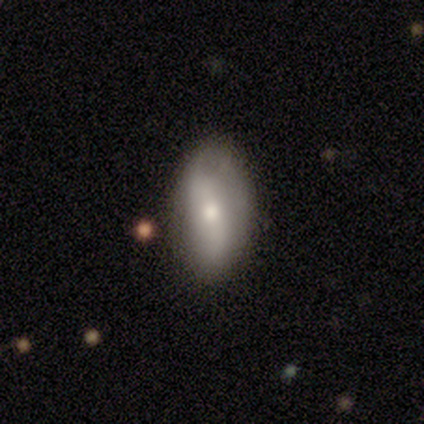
Volunteers were most divided on "smooth or featured": smooth: 80%, featured or disk: 20%, star or artifact: 0%. More confident: how rounded — in between (100%); merging — none (100%).